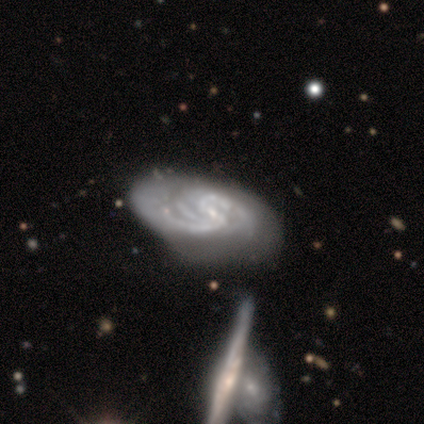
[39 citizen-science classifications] smooth_or_featured: featured or disk (p=0.87) [alt: star or artifact p=0.08]
disk_edge_on: no (p=0.97) [alt: yes p=0.03]
bar: weak (p=0.61) [alt: no p=0.24]
has_spiral_arms: yes (p=1.00)
spiral_winding: medium (p=0.58) [alt: tight p=0.33]
spiral_arm_count: 2 (p=0.36) [alt: can't tell p=0.30]
bulge_size: small (p=0.73) [alt: moderate p=0.15]
merging: none (p=0.39) [alt: minor disturbance p=0.36]